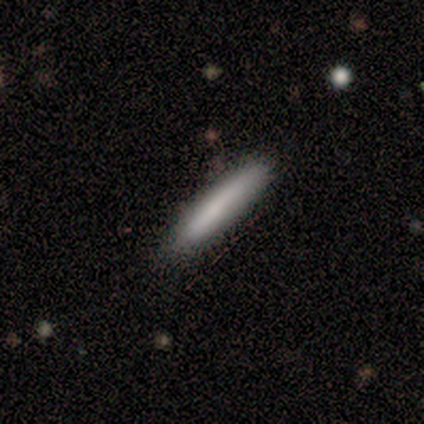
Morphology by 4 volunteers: Smooth or featured? smooth (75%)
How rounded? cigar-shaped (67%)
Merging? none (75%)